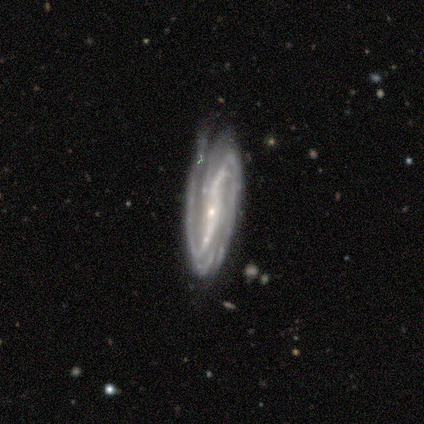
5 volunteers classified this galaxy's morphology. Volunteers were most divided on "bar" (2-way tie): strong: 40%, weak: 40%, no: 20%; "spiral winding" (2-way tie): tight: 50%, medium: 50%, loose: 0%. More confident: smooth or featured — featured or disk (100%); edge-on disk — no (100%); bulge size — small (100%); spiral arms — yes (80%); merging — none (80%); spiral arm count — 2 (50%).